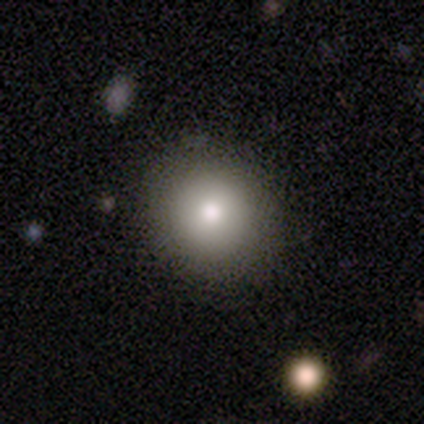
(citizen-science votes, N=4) smooth 50%, featured or disk 25%, star or artifact 25%. Down the decision tree: how rounded — round (100%); merging — none (100%).